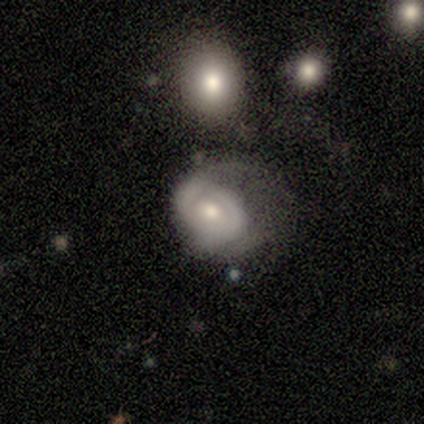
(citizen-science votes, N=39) This appears to be a featured or disk galaxy (67%) with no bar (84%), 2 (43%, tied with can't tell) tight (64%) spiral arms (56%) and a moderate central bulge (56%). Merging: major disturbance (41%).